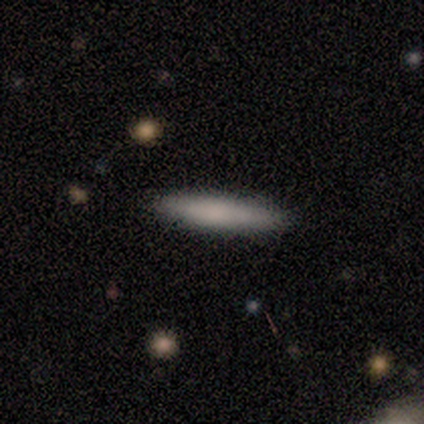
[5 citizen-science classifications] Morphology: type=smooth (60%); roundness=cigar-shaped (100%); merging=none (80%).